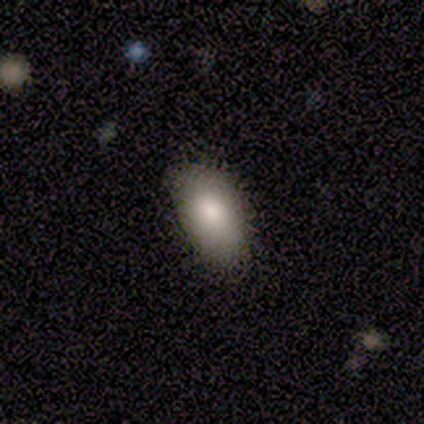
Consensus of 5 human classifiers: Morphology: type=smooth (60%); roundness=in between (100%); merging=none (80%).